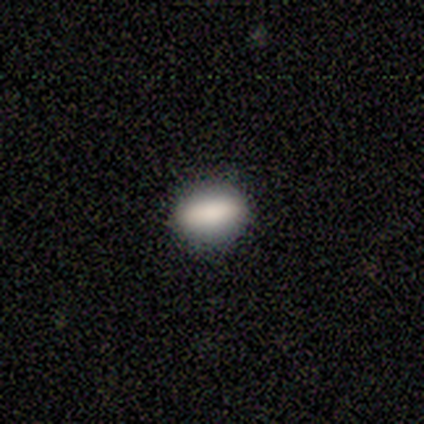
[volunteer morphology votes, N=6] Smooth or featured? smooth (83%)
How rounded? in between (100%)
Merging? none (100%)